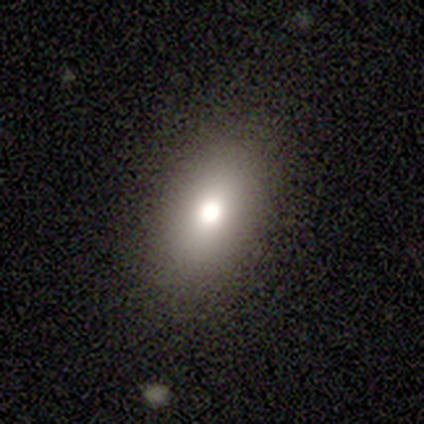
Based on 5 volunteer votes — This appears to be a smooth galaxy with no disk features (80%) that is in between round and cigar-shaped (100%). Merging: none (100%).